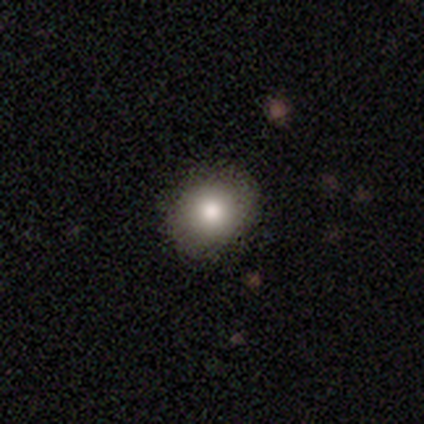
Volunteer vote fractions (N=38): smooth 74%, star or artifact 18%, featured or disk 8%. Down the decision tree: how rounded — round (86%); merging — none (97%).